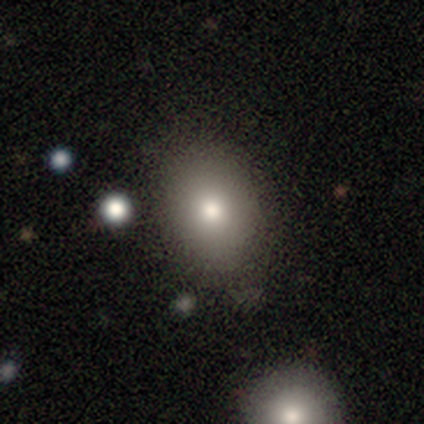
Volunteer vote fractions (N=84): Smooth or featured: smooth — 80% (star or artifact — 13%)
How rounded: in between — 61% (round — 39%)
Merging: none — 82% (minor disturbance — 12%)